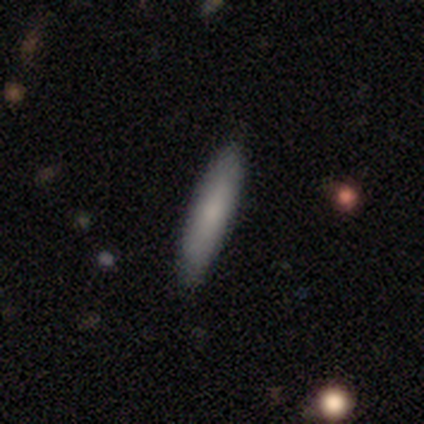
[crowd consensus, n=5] Overall: smooth (80%). How rounded: cigar-shaped (75%). Merging: none (100%).